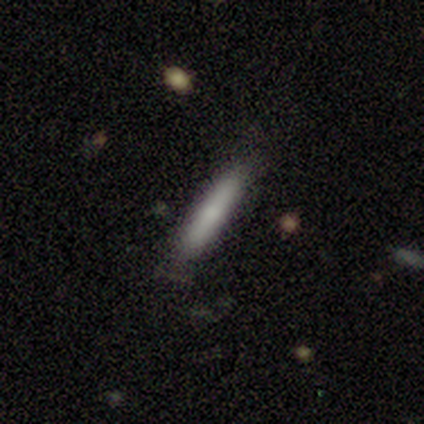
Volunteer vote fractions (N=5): A smooth galaxy with no disk features (80%) that is cigar-shaped (75%).

Vote fractions:
- Smooth or featured? smooth: 80% / featured or disk: 20% / star or artifact: 0%
- How rounded? cigar-shaped: 75% / in between: 25% / round: 0%
- Merging? none: 60% / minor disturbance: 40% / major disturbance: 0% / merger: 0%